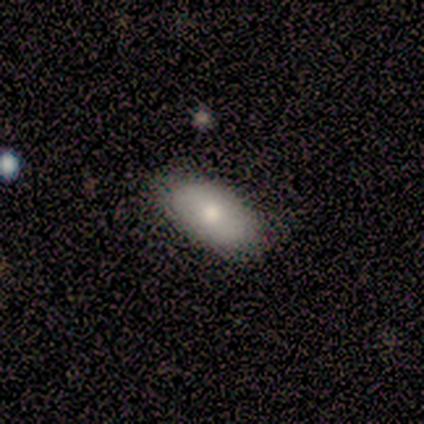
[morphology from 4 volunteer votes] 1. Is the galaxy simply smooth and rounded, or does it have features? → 75% smooth, 25% featured or disk, 0% star or artifact.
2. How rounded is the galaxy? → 100% in between, 0% round, 0% cigar-shaped.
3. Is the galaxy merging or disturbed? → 75% none, 25% minor disturbance, 0% major disturbance, 0% merger.